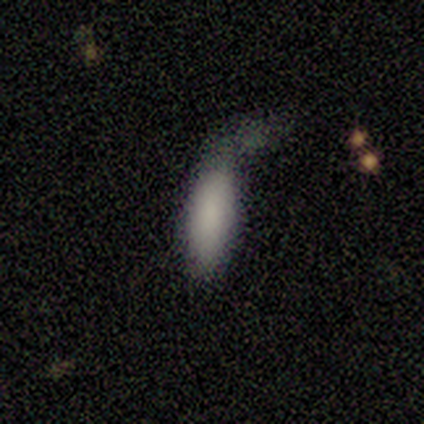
A smooth galaxy with no disk features (100%) that is cigar-shaped (60%).

Vote fractions:
- Smooth or featured? smooth: 100% / featured or disk: 0% / star or artifact: 0%
- How rounded? cigar-shaped: 60% / in between: 40% / round: 0%
- Merging? none: 40% (tied) / major disturbance: 40% (tied) / minor disturbance: 20% / merger: 0%